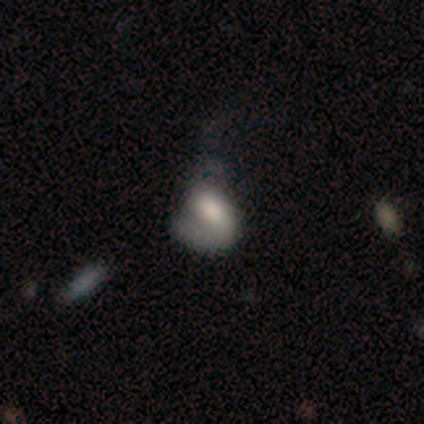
smooth_or_featured: featured or disk (p=0.80) [alt: smooth p=0.20]
disk_edge_on: no (p=1.00)
bar: no (p=0.75) [alt: strong p=0.25]
has_spiral_arms: yes (p=0.75) [alt: no p=0.25]
spiral_winding: medium (p=1.00)
spiral_arm_count: 1 (p=0.67) [alt: 2 p=0.33]
bulge_size: large (p=0.50) [alt: dominant p=0.25]
merging: major disturbance (p=0.60) [alt: none p=0.20]